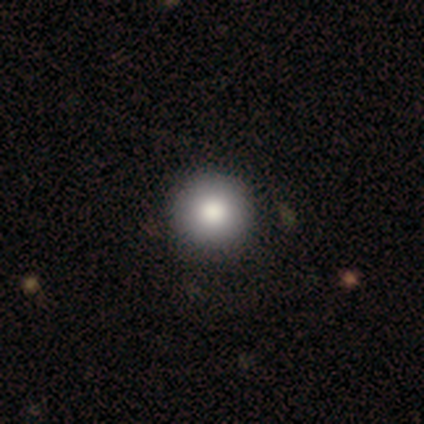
A smooth galaxy with no disk features (77%) that is round (97%).

Vote fractions:
- Smooth or featured? smooth: 77% / featured or disk: 15% / star or artifact: 8%
- How rounded? round: 97% / in between: 3% / cigar-shaped: 0%
- Merging? none: 61% / merger: 8% / minor disturbance: 6% / major disturbance: 0%